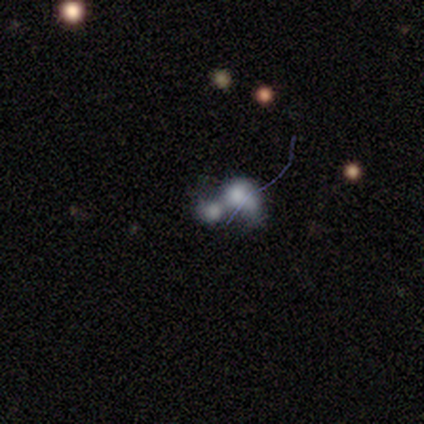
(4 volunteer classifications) Volunteers were most divided on "smooth or featured": smooth: 50%, featured or disk: 25%, star or artifact: 25%. More confident: how rounded — round (100%); merging — merger (100%).